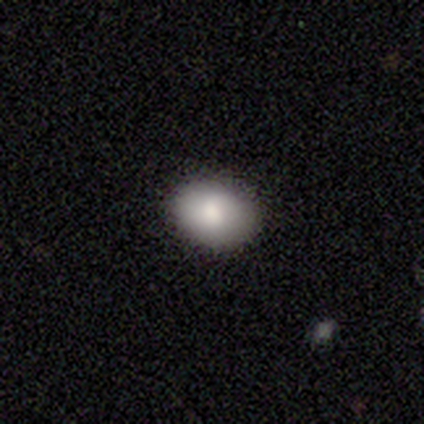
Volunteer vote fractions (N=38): This appears to be a smooth galaxy with no disk features (87%) that is in between round and cigar-shaped (76%). Merging: none (94%).